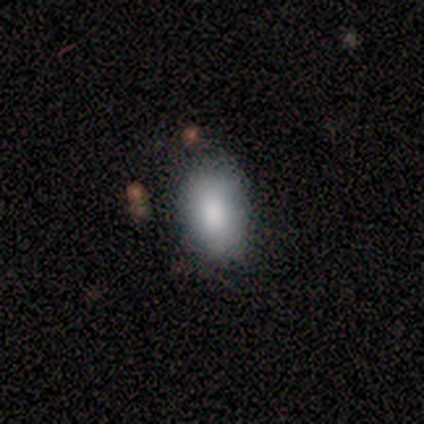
Overall: smooth (100%). How rounded: in between (100%). Merging: none (100%).